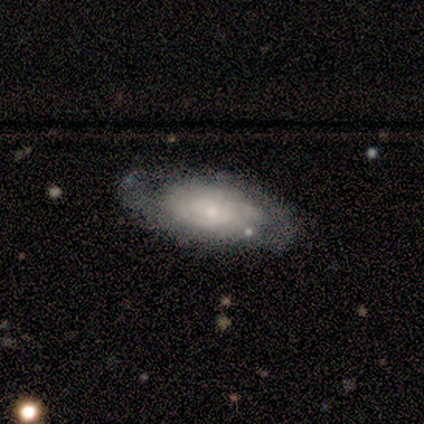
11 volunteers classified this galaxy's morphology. Volunteers were most divided on "spiral arm count": can't tell: 44%, 2: 33%, 3: 11%, 4: 11%, 1: 0%, more than 4: 0%. More confident: edge-on disk — no (100%); smooth or featured — featured or disk (91%); spiral arms — yes (90%); spiral winding — tight (89%); merging — none (82%); bulge size — small (80%); bar — no (70%).